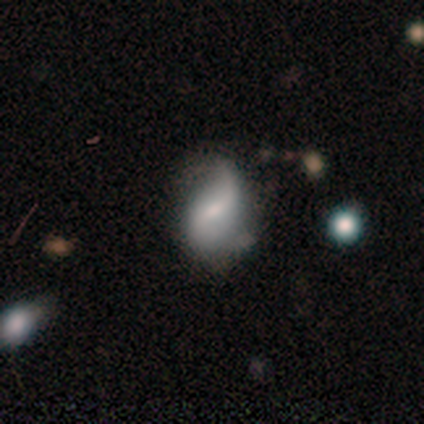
This appears to be a featured or disk galaxy (60%) with a weak bar (67%), 2 (100%) loose (67%) spiral arms (100%) and a moderate central bulge (33%, tied with small and none). Merging: none (40%, tied with minor disturbance).